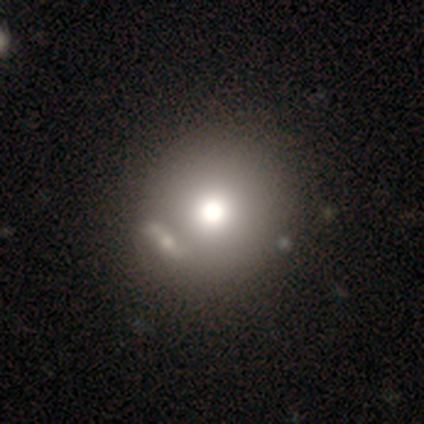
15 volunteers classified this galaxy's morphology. This appears to be a smooth galaxy with no disk features (60%) that is round (100%). Merging: none (64%).